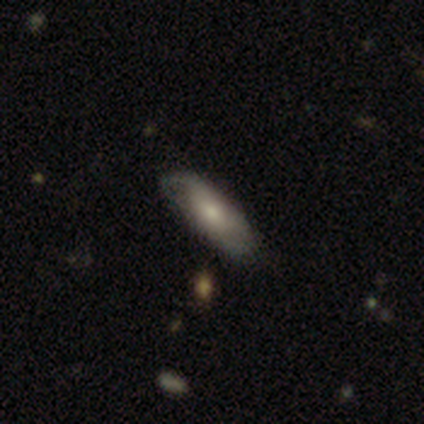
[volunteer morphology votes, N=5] Overall: smooth (60%; featured or disk 40%). How rounded: in between (100%). Merging: none (60%; minor disturbance 40%).